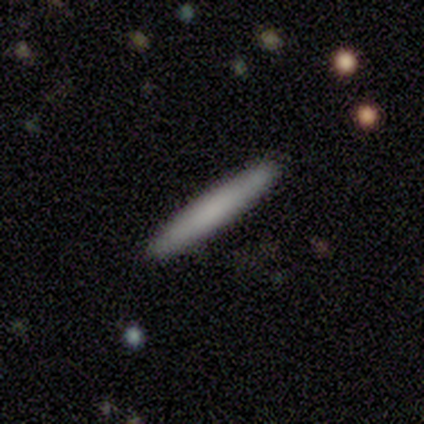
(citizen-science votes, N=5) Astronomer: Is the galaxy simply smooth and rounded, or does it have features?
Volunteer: smooth — 80%.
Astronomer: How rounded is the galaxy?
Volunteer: cigar-shaped — 100%.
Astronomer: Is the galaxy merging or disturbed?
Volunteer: none — 80%.